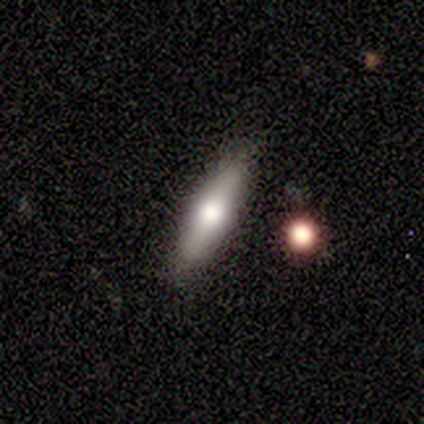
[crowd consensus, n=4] Morphology: type=featured or disk (75%); edge-on=yes (100%); edge-on bulge=rounded (100%); merging=none (50%, tied with minor disturbance).